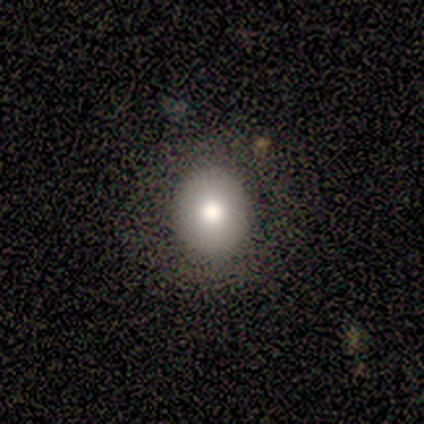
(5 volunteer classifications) Smooth or featured? 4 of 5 (80%) said smooth. How rounded? 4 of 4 (100%) said round. Merging? 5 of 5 (100%) said none.